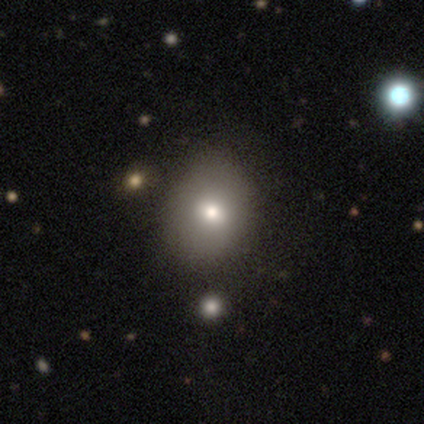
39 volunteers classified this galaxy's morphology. Smooth or featured? 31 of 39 (79%) said smooth. How rounded? 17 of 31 (55%) said round. Merging? 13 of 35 (37%) said none.